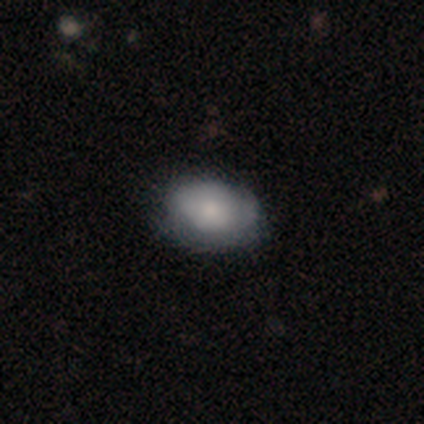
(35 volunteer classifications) A smooth galaxy with no disk features (74%) that is in between round and cigar-shaped (92%).

Vote fractions:
- Smooth or featured? smooth: 74% / featured or disk: 17% / star or artifact: 9%
- How rounded? in between: 92% / round: 8% / cigar-shaped: 0%
- Merging? none: 72% / minor disturbance: 28% / major disturbance: 0% / merger: 0%